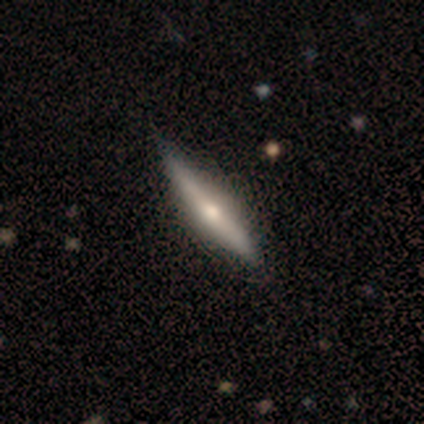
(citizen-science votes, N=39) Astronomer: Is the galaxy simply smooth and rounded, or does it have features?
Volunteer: featured or disk — 74%.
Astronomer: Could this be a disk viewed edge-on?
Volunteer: yes — 100%.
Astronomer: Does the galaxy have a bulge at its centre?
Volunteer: rounded — 86%.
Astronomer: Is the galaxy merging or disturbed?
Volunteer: none — 61%.